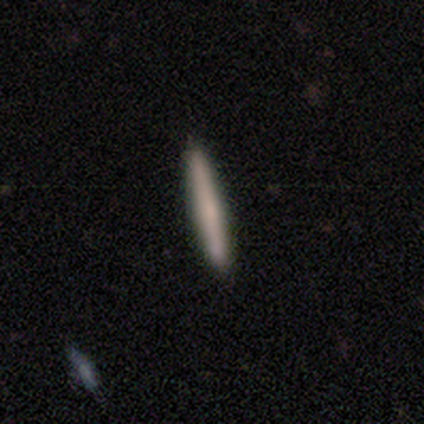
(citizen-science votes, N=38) Volunteers were most divided on "smooth or featured": smooth: 63%, featured or disk: 32%, star or artifact: 5%. More confident: how rounded — cigar-shaped (100%); merging — none (89%).